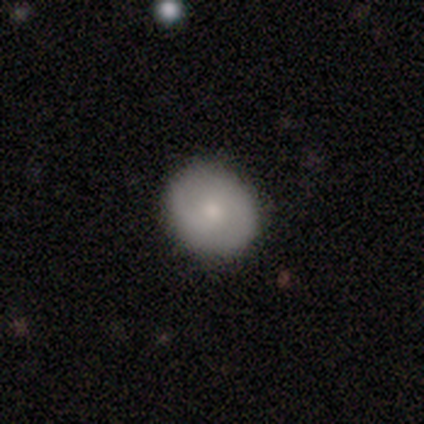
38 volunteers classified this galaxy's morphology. Q: Smooth or featured?
A: smooth (71%); runner-up: featured or disk (24%)
Q: How rounded?
A: round (81%); runner-up: in between (19%)
Q: Merging?
A: none (92%); runner-up: minor disturbance (6%)